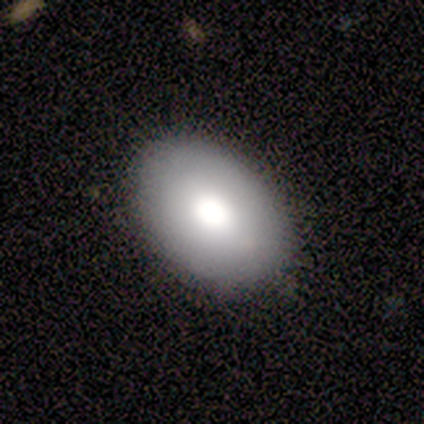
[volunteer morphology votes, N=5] smooth_or_featured: smooth (p=0.60) [alt: featured or disk p=0.40]
how_rounded: in between (p=0.67) [alt: round p=0.33]
merging: none (p=0.80) [alt: minor disturbance p=0.20]